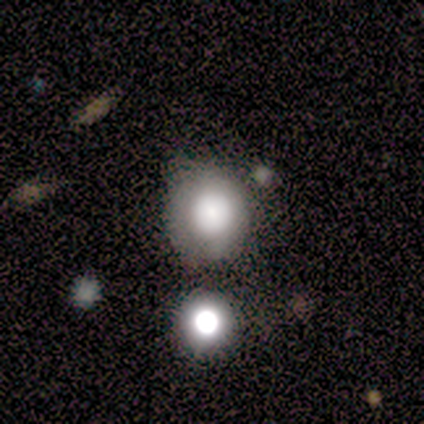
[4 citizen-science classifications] Smooth or featured: smooth — 100%
How rounded: round — 100%
Merging: none — 100%